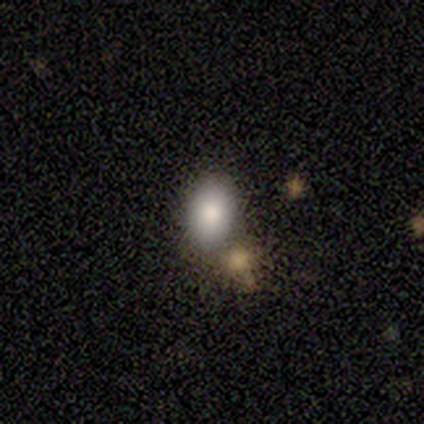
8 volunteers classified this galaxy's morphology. This is clearly a smooth galaxy (100%). How rounded: clearly in between (100%). Merging: likely none (75%).